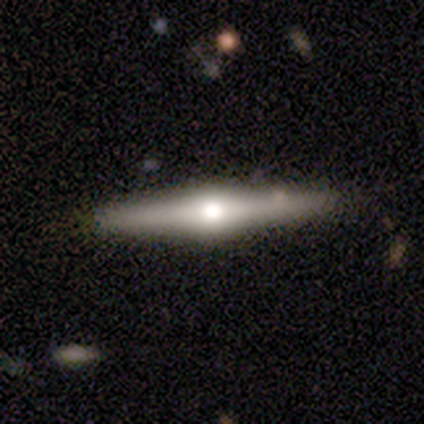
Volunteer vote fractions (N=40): Q: Smooth or featured?
A: featured or disk (82%); runner-up: smooth (18%)
Q: Edge-on disk?
A: yes (97%); runner-up: no (3%)
Q: Edge-on bulge?
A: rounded (100%)
Q: Merging?
A: none (65%); runner-up: merger (5%)